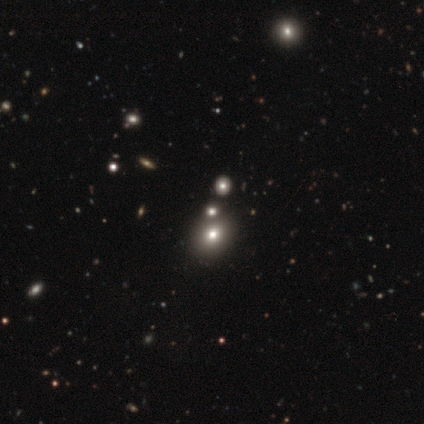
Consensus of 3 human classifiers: A star or artifact, not a galaxy (67%).